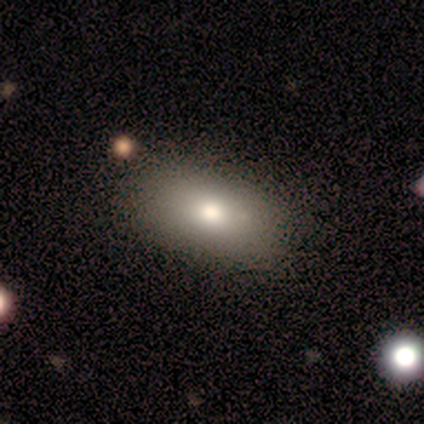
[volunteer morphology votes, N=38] A smooth galaxy with no disk features (71%) that is in between round and cigar-shaped (89%). Merging: none (77%).